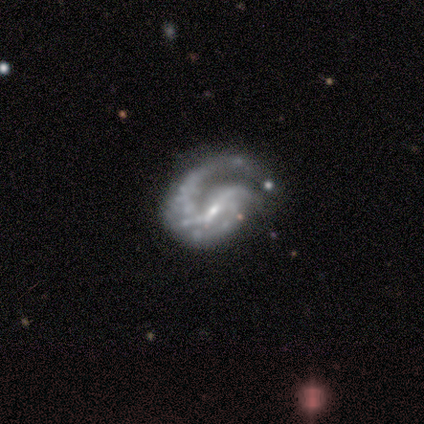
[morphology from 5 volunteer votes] This appears to be a featured or disk galaxy (100%) with no bar (60%), 1 (80%) medium (80%) spiral arms (100%) and a small central bulge (100%). Merging: none (60%).